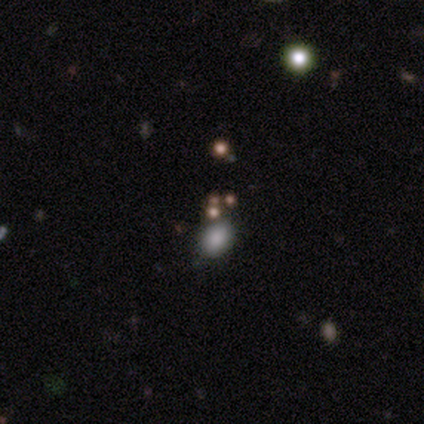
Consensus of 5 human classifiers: This appears to be a smooth galaxy with no disk features (60%) that is in between round and cigar-shaped (67%). Merging: none (75%).